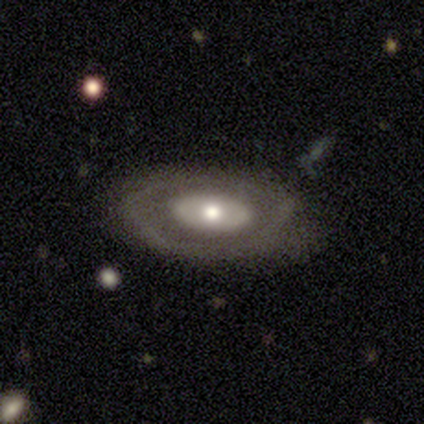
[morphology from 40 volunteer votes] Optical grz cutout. It shows a featured or disk galaxy (75%) with no bar (96%), no spiral arms (74%) and a moderate central bulge (81%). Merging: none (69%).